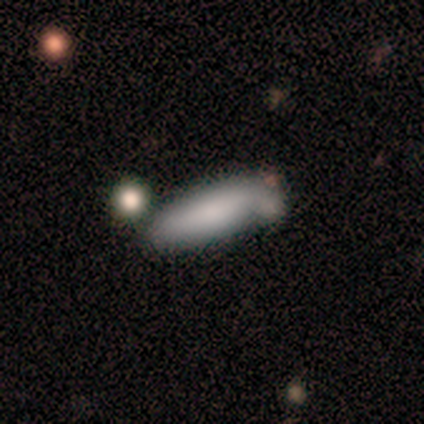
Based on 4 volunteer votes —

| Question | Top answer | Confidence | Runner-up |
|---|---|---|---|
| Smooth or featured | smooth | 100% | — |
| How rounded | in between | 75% | cigar-shaped (25%) |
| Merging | minor disturbance | 50% | tied: merger (50%) |